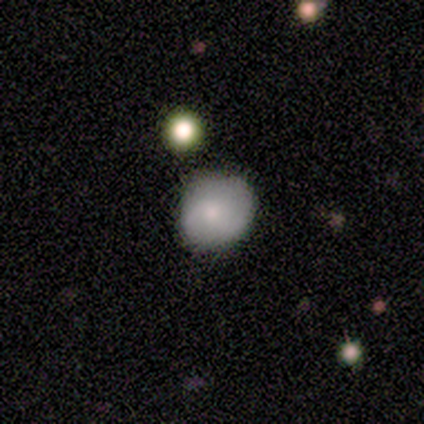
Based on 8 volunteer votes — Smooth or featured? 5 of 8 (62%) said smooth. How rounded? 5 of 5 (100%) said round. Merging? 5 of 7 (71%) said none.